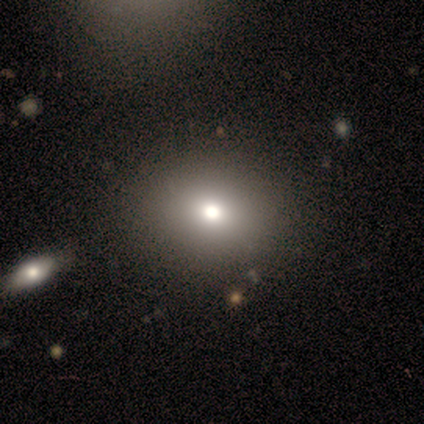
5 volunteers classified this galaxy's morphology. Volunteers were most divided on "smooth or featured" (2-way tie): smooth: 40%, featured or disk: 40%, star or artifact: 20%. More confident: how rounded — round (100%); merging — none (100%).